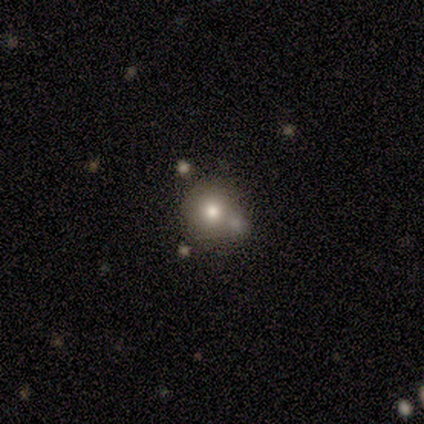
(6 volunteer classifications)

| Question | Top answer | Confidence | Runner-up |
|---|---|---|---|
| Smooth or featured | smooth | 50% | featured or disk (33%) |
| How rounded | round | 100% | — |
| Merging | none | 60% | minor disturbance (20%) |